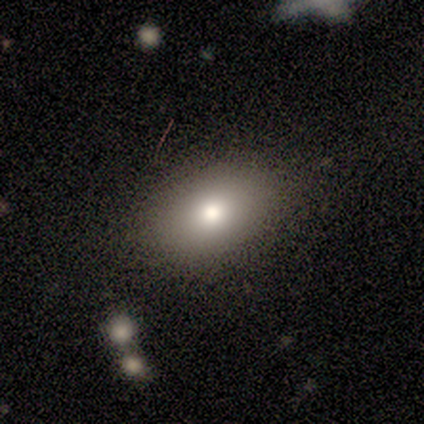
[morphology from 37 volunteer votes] smooth_or_featured: smooth (p=0.73) [alt: featured or disk p=0.14]
how_rounded: in between (p=0.78) [alt: round p=0.15]
merging: none (p=0.91) [alt: merger p=0.06]